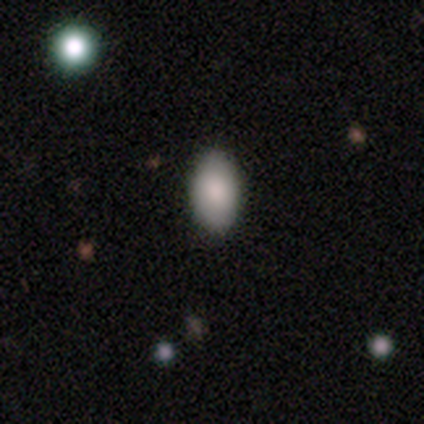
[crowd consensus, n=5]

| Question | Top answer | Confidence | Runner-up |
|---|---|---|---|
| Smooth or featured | smooth | 100% | — |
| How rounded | in between | 100% | — |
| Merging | none | 60% | minor disturbance (20%) |